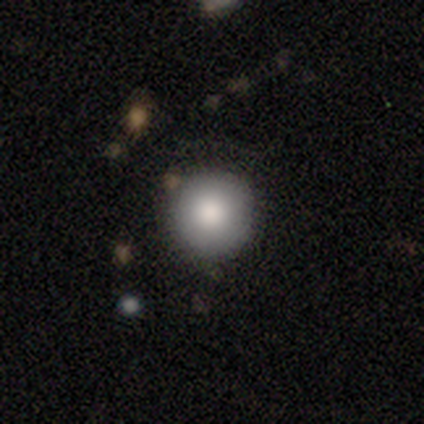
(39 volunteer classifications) smooth-or-featured: smooth: 77% | star or artifact: 13% | featured or disk: 10%
  how-rounded: round: 97% | in between: 3% | cigar-shaped: 0%
  merging: none: 88% | minor disturbance: 6% | merger: 6% | major disturbance: 0%